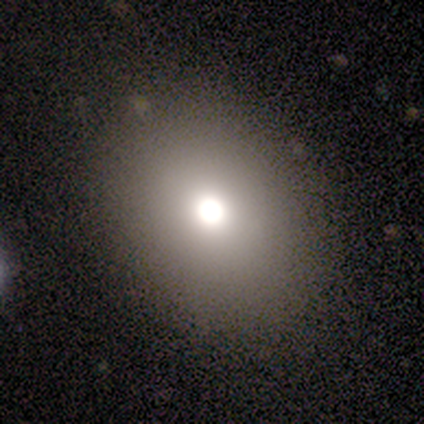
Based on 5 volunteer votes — This appears to be a smooth galaxy with no disk features (80%) that is round (50%, tied with in between). Merging: none (100%).